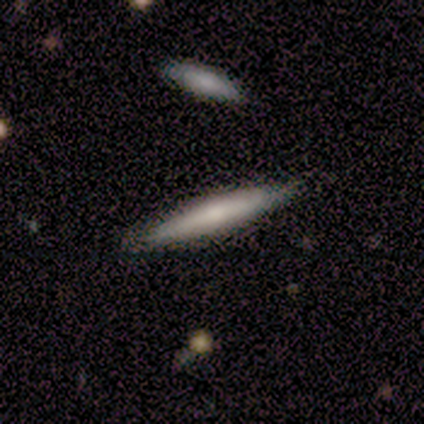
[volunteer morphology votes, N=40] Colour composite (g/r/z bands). It shows a featured or disk galaxy (60%) viewed edge-on (92%) with a rounded central bulge (59%). Merging: none (82%).